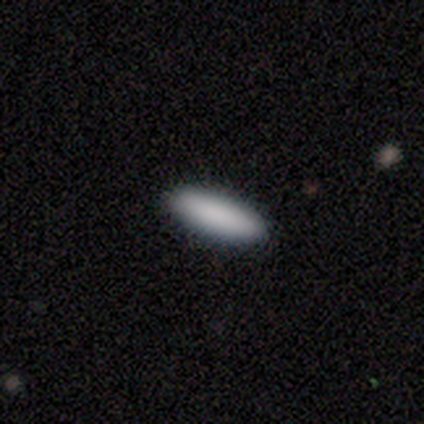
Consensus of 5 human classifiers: Smooth or featured: smooth — 100%
How rounded: in between — 60% (cigar-shaped — 40%)
Merging: none — 100%